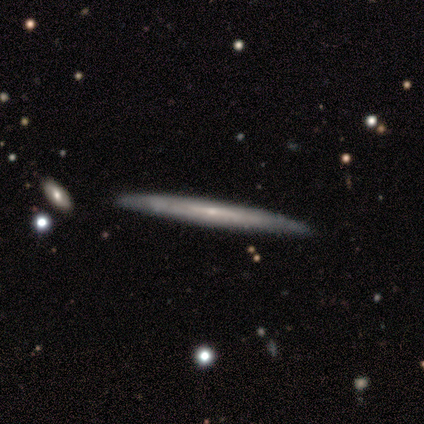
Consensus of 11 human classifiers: Smooth or featured: featured or disk — 73% (smooth — 18%)
Edge-on disk: yes — 100%
Edge-on bulge: none — 62% (rounded — 38%)
Merging: none — 100%